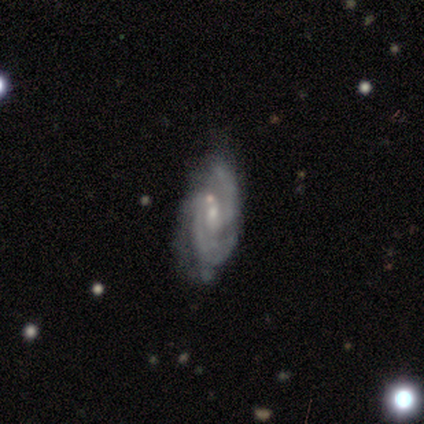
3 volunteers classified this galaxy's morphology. Q: Smooth or featured?
A: featured or disk (67%); runner-up: smooth (33%)
Q: Edge-on disk?
A: yes (50%); tied with: no (50%)
Q: Edge-on bulge?
A: boxy (100%)
Q: Merging?
A: minor disturbance (67%); runner-up: none (33%)